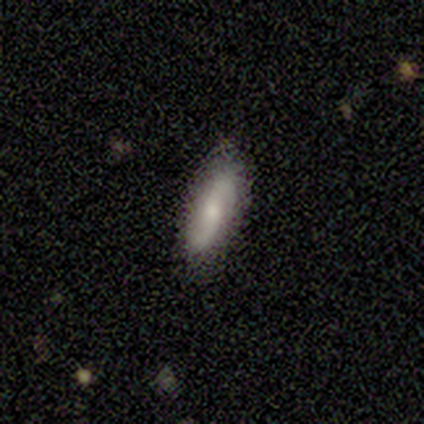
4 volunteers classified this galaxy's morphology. Smooth or featured? smooth (75%)
How rounded? in between (100%)
Merging? none (75%)